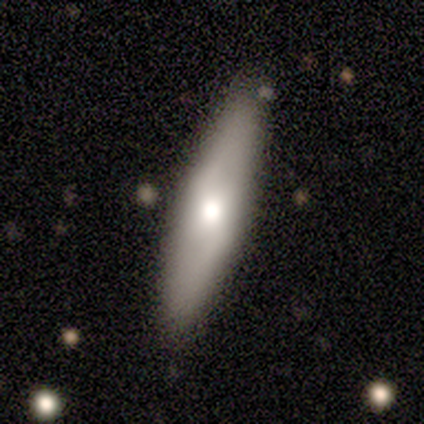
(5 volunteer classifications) Overall: smooth (60%; featured or disk 40%). How rounded: cigar-shaped (100%). Merging: none (100%).